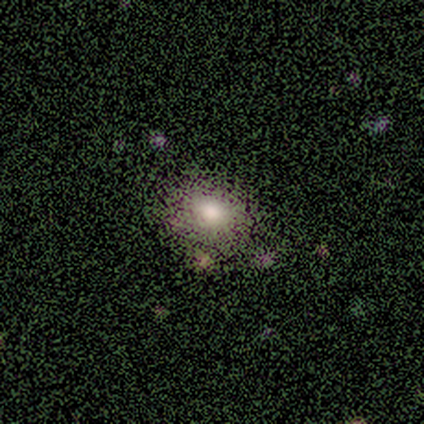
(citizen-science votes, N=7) smooth_or_featured: smooth (p=0.57) [alt: featured or disk p=0.29]
how_rounded: round (p=0.50) [tied with: in between p=0.50]
merging: none (p=0.83) [alt: minor disturbance p=0.17]